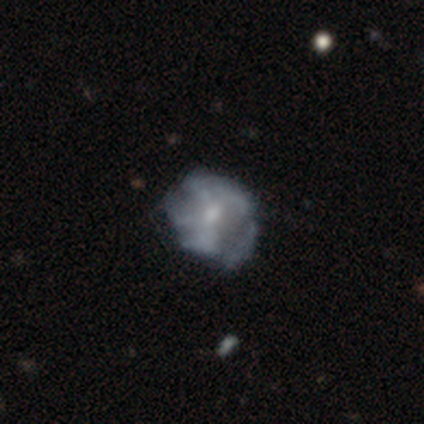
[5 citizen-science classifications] Smooth or featured? 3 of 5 (60%) said featured or disk. Edge-on disk? 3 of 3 (100%) said no. Bar? 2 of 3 (67%) said no. Spiral arms? 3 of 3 (100%) said yes. Spiral winding? 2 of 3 (67%) said tight. Spiral arm count? 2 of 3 (67%) said can't tell. Bulge size? 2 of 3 (67%) said moderate. Merging? 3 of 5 (60%) said none.